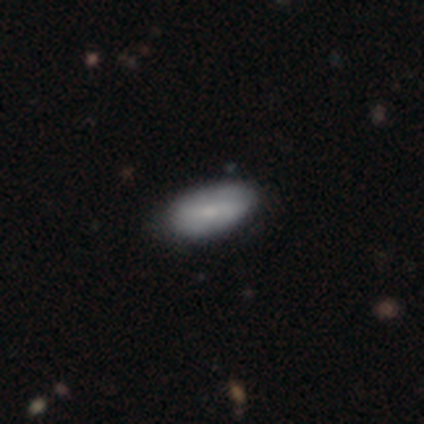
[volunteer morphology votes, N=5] type=smooth (100%); roundness=in between (80%); merging=none (80%).